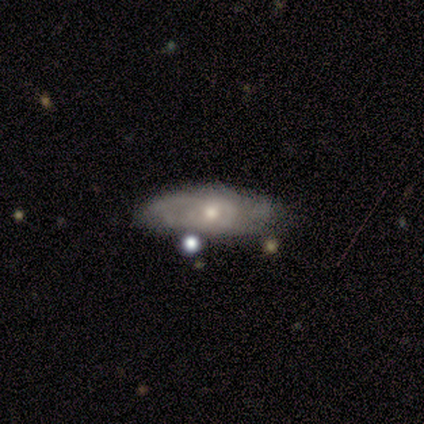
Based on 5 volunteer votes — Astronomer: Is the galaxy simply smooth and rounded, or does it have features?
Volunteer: featured or disk — 60% (runner-up: smooth, 40%).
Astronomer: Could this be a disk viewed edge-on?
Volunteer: no — 100%.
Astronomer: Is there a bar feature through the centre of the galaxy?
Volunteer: no — 67%.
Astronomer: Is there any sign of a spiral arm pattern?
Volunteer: yes — 100%.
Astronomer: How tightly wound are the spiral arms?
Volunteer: tight — 67%.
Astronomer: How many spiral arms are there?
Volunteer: can't tell — 67%.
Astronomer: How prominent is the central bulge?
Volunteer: moderate — 100%.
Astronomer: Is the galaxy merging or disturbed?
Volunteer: minor disturbance — 40%, tied with major disturbance at 40%.